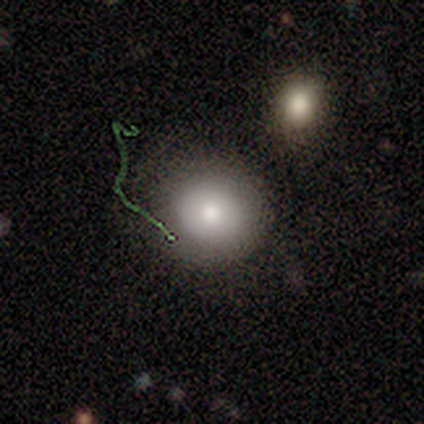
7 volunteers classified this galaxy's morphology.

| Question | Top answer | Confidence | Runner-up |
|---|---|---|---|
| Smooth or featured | smooth | 86% | featured or disk (14%) |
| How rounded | round | 83% | in between (17%) |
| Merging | none | 71% | major disturbance (29%) |